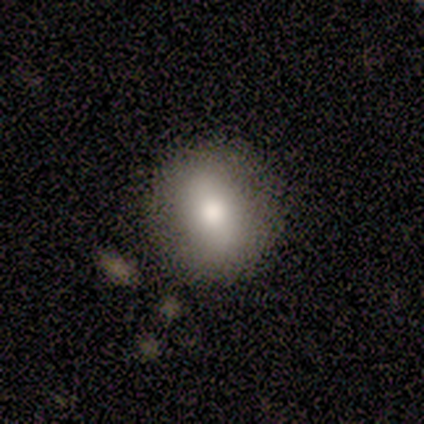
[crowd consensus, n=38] Overall: smooth (84%). How rounded: round (72%). Merging: none (61%).